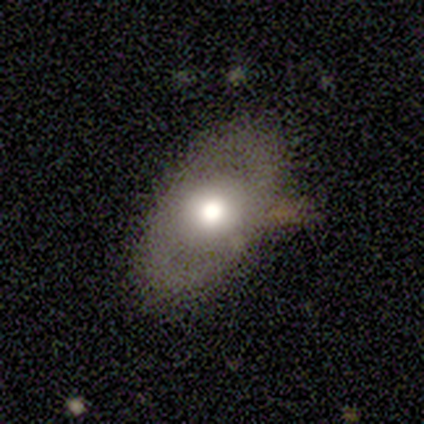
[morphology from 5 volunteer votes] Smooth or featured? 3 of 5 (60%) said smooth. How rounded? 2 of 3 (67%) said in between. Merging? 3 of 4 (75%) said none.